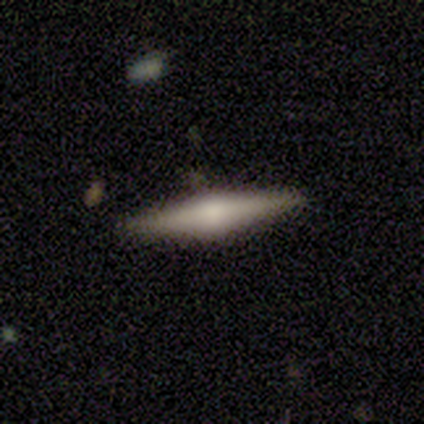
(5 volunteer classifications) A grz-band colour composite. It shows a smooth galaxy with no disk features (80%) that is cigar-shaped (100%). Merging: none (100%).